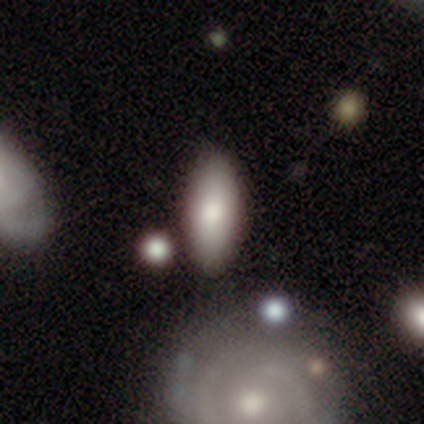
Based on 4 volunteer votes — Morphology: type=smooth (100%); roundness=in between (75%); merging=none (100%).